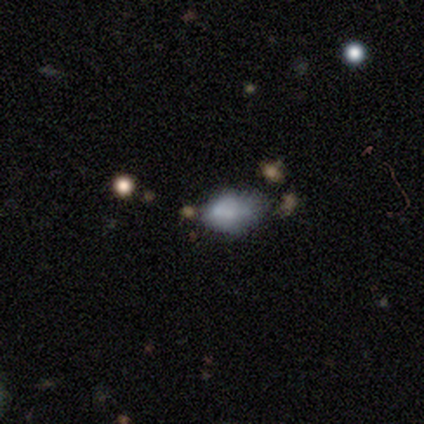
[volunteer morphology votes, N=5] smooth_or_featured: smooth (p=0.80) [alt: star or artifact p=0.20]
how_rounded: in between (p=0.75) [alt: cigar-shaped p=0.25]
merging: minor disturbance (p=0.50) [tied with: major disturbance p=0.50]